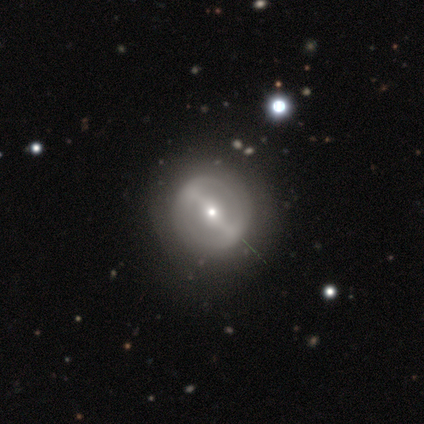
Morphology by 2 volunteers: Overall: featured or disk (100%). Edge-on disk: no (100%). Bar: strong (100%). Spiral arms: yes (50%, tied with no). Spiral arm count: 3 (100%). Spiral winding: medium (100%). Bulge size: moderate (50%, tied with small). Merging: none (100%).